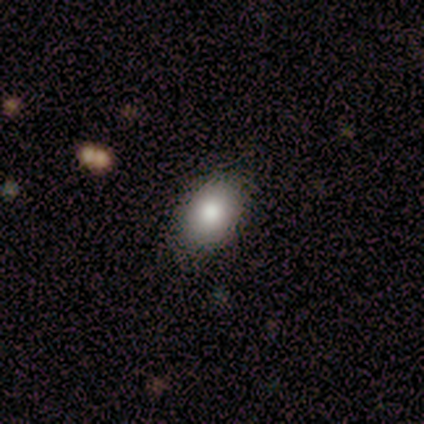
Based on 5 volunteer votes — Q: Smooth or featured?
A: smooth (80%); runner-up: featured or disk (20%)
Q: How rounded?
A: in between (75%); runner-up: round (25%)
Q: Merging?
A: none (80%); runner-up: minor disturbance (20%)